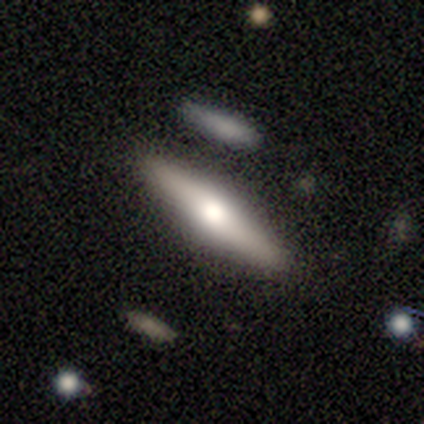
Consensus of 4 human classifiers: A smooth galaxy with no disk features (75%) that is cigar-shaped (67%). Merging: none (100%).